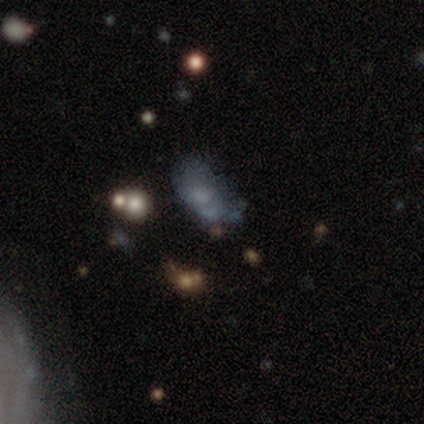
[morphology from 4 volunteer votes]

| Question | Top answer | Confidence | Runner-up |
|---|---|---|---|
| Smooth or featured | smooth | 75% | featured or disk (25%) |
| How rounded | in between | 100% | — |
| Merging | minor disturbance | 50% | major disturbance (25%) |